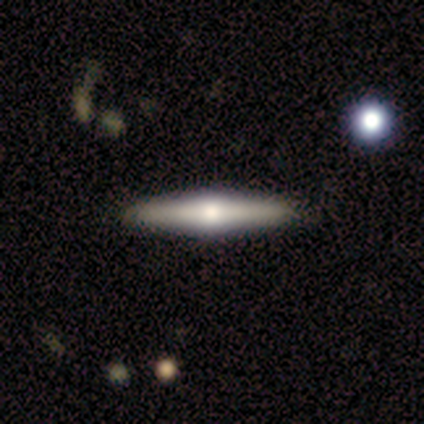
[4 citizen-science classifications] This is clearly a featured or disk galaxy (100%). It is clearly viewed edge-on (100%). Edge-on bulge: clearly rounded (100%). Merging: clearly none (100%).